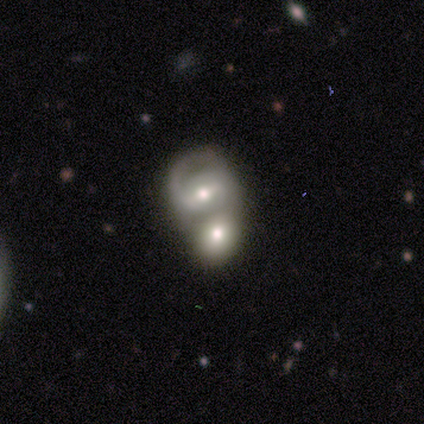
Smooth or featured? 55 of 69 (80%) said featured or disk. Edge-on disk? 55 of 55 (100%) said no. Bar? 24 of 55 (44%) said weak. Spiral arms? 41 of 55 (75%) said yes. Spiral winding? 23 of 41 (56%) said medium. Spiral arm count? 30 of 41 (73%) said 2. Bulge size? 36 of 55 (65%) said moderate. Merging? 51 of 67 (76%) said merger.